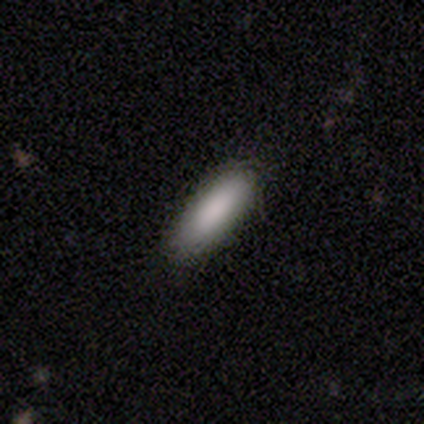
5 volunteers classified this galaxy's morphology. smooth 80%, featured or disk 20%, star or artifact 0%. Down the decision tree: how rounded — in between (50%, tied with cigar-shaped); merging — none (80%).